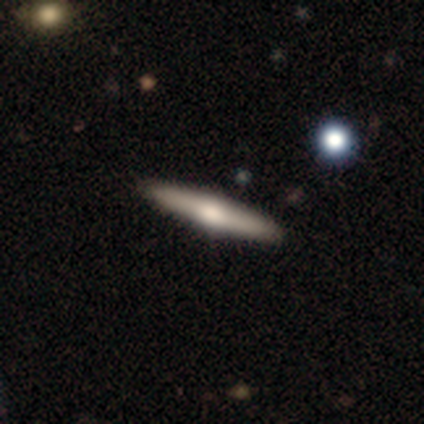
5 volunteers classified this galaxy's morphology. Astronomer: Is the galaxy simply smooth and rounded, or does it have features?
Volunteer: smooth — 40%, tied with featured or disk at 40%.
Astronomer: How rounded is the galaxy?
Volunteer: cigar-shaped — 100%.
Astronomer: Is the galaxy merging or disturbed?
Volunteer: none — 100%.